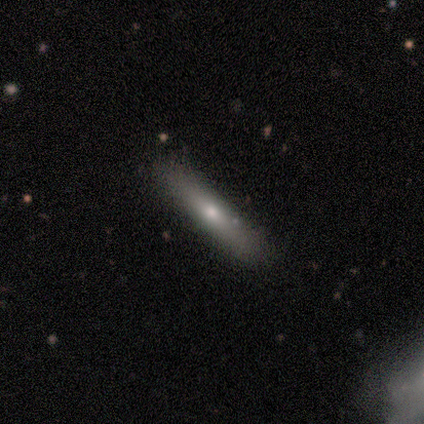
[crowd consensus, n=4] A smooth galaxy with no disk features (100%) that is cigar-shaped (100%). Merging: none (100%).